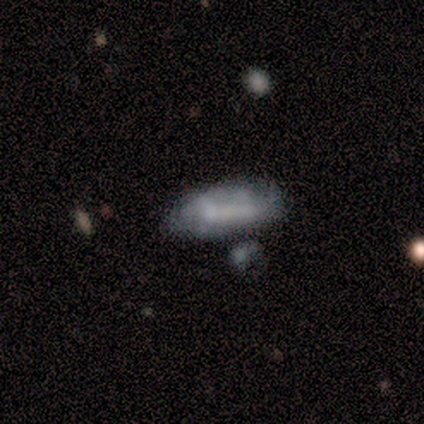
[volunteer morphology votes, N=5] smooth 100%, featured or disk 0%, star or artifact 0%. Down the decision tree: how rounded — in between (80%); merging — minor disturbance (60%).